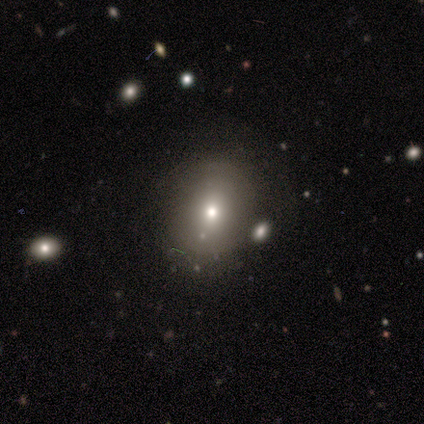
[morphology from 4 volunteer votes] Smooth or featured: featured or disk — 75% (star or artifact — 25%)
Edge-on disk: no — 100%
Bar: no — 67% (weak — 33%)
Spiral arms: no — 100%
Bulge size: moderate — 67% (small — 33%)
Merging: none — 100%